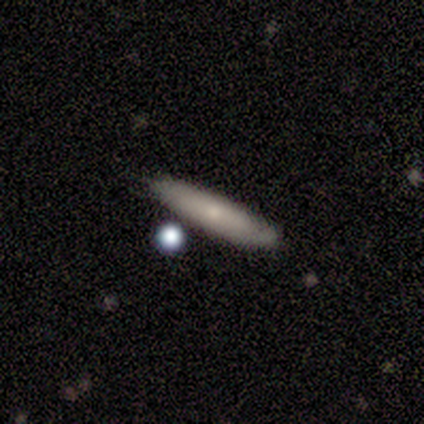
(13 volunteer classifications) Morphology: type=smooth (62%); roundness=cigar-shaped (88%); merging=none (85%).